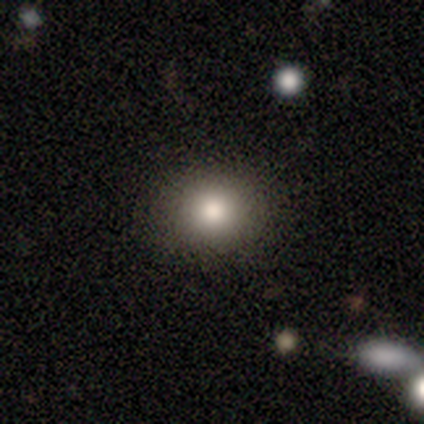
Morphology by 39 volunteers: This is clearly a smooth galaxy (82%). How rounded: likely round (78%). Merging: clearly none (85%).